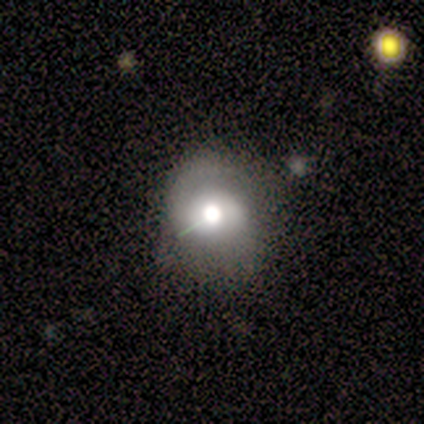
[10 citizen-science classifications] Overall: smooth (60%; featured or disk 30%). How rounded: round (100%). Merging: minor disturbance (56%; none 33%).